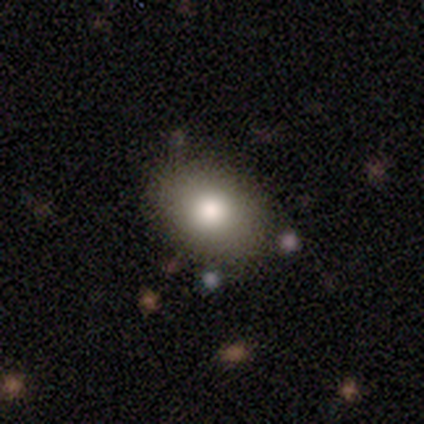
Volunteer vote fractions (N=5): smooth 60%, featured or disk 20%, star or artifact 20%. Down the decision tree: how rounded — in between (67%); merging — none (75%).